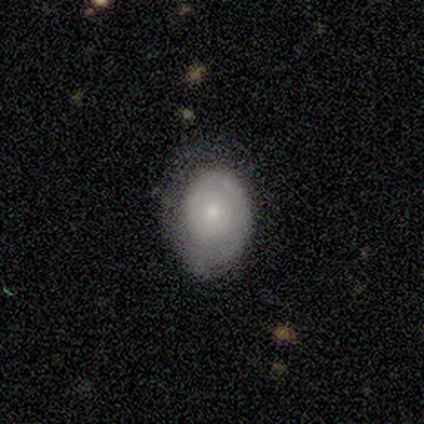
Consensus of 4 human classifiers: Smooth or featured?
  - featured or disk: 75% *
  - smooth: 25%
  - star or artifact: 0%
Edge-on disk?
  - no: 100% *
  - yes: 0%
Bar?
  - no: 100% *
  - strong: 0%
  - weak: 0%
Spiral arms?
  - yes: 100% *
  - no: 0%
Spiral winding?
  - tight: 100% *
  - medium: 0%
  - loose: 0%
Spiral arm count?
  - 1: 100% *
  - 2: 0%
  - 3: 0%
  - 4: 0%
  - more than 4: 0%
  - can't tell: 0%
Bulge size?
  - small: 67% *
  - moderate: 33%
  - dominant: 0%
  - large: 0%
  - none: 0%
Merging?
  - none: 50% * (tied)
  - minor disturbance: 50% * (tied)
  - major disturbance: 0%
  - merger: 0%